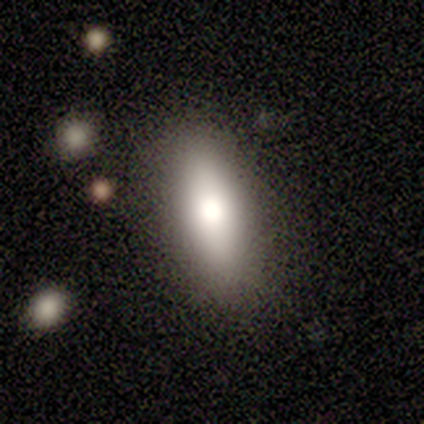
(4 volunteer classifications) Smooth or featured? 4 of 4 (100%) said smooth. How rounded? 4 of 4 (100%) said in between. Merging? 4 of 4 (100%) said none.